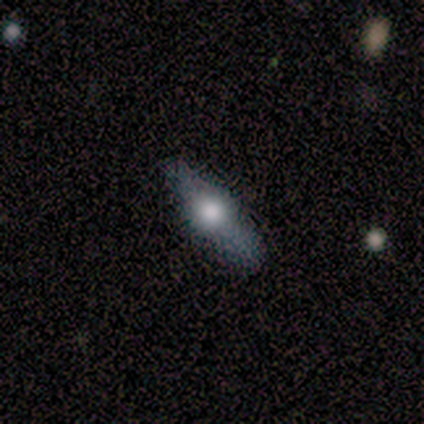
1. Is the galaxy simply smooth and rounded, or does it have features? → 80% featured or disk, 20% smooth, 0% star or artifact.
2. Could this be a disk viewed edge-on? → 75% yes, 25% no.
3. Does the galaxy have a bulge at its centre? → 100% rounded, 0% boxy, 0% none.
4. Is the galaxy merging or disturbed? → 60% none, 40% minor disturbance, 0% major disturbance, 0% merger.